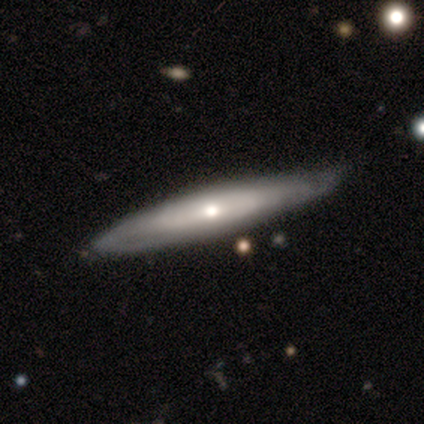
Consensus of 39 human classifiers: Smooth or featured?
  - featured or disk: 69% *
  - smooth: 28%
  - star or artifact: 3%
Edge-on disk?
  - yes: 52% *
  - no: 48%
Edge-on bulge?
  - rounded: 79% *
  - none: 14%
  - boxy: 7%
Merging?
  - none: 53% *
  - minor disturbance: 21%
  - major disturbance: 5%
  - merger: 0%